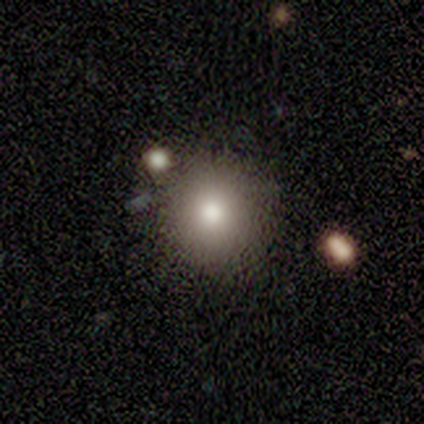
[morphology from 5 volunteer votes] Volunteers were most divided on "smooth or featured": smooth: 80%, featured or disk: 20%, star or artifact: 0%. More confident: how rounded — round (100%); merging — none (100%).